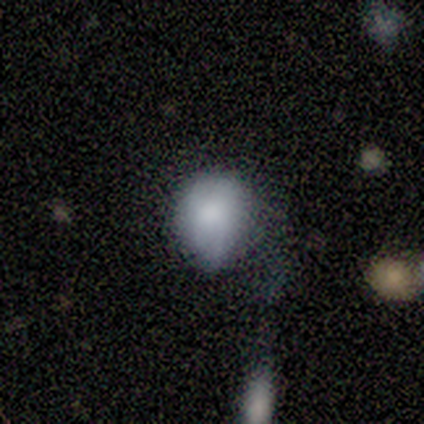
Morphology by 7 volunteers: Overall: smooth (86%). How rounded: round (67%; in between 33%). Merging: none (43%, tied with minor disturbance).